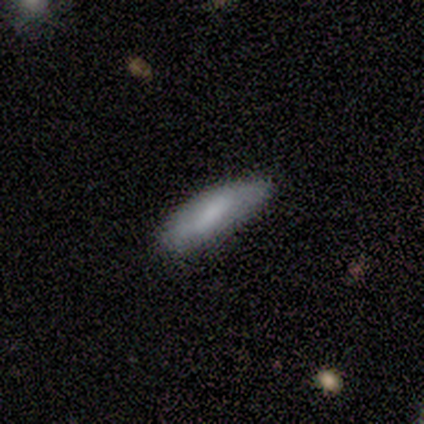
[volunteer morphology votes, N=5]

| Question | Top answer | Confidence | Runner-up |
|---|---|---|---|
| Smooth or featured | smooth | 80% | featured or disk (20%) |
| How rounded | in between | 50% | tied: cigar-shaped (50%) |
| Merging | none | 60% | minor disturbance (40%) |